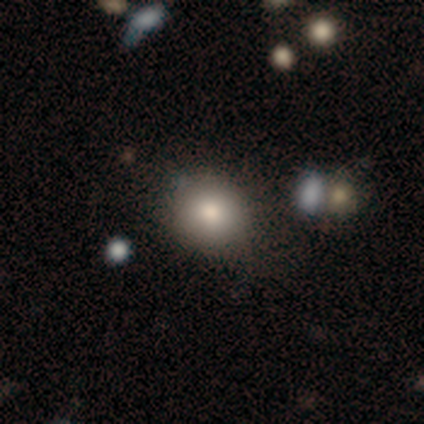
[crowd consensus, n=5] This appears to be a smooth galaxy with no disk features (60%) that is round (100%). Merging: none (60%).